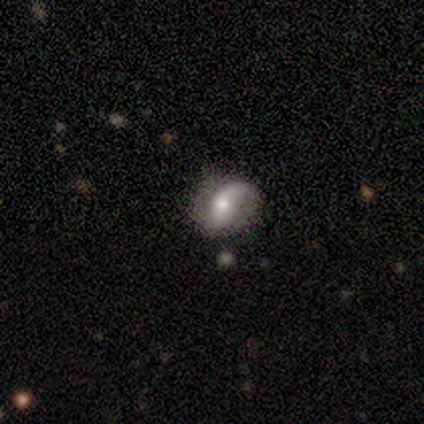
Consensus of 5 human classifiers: Smooth or featured? 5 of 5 (100%) said featured or disk. Edge-on disk? 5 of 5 (100%) said no. Bar? 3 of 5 (60%) said no. Spiral arms? 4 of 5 (80%) said yes. Spiral winding? 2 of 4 (50%, tied with loose) said medium. Spiral arm count? 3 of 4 (75%) said 1. Bulge size? 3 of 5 (60%) said small. Merging? 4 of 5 (80%) said none.